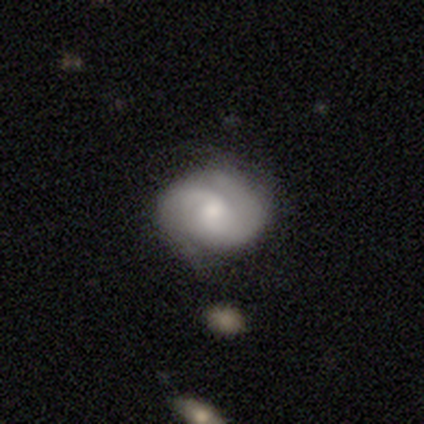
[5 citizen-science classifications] Smooth or featured? 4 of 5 (80%) said featured or disk. Edge-on disk? 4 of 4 (100%) said no. Bar? 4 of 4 (100%) said no. Spiral arms? 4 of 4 (100%) said yes. Spiral winding? 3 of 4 (75%) said tight. Spiral arm count? 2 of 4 (50%) said 2. Bulge size? 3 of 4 (75%) said moderate. Merging? 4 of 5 (80%) said none.